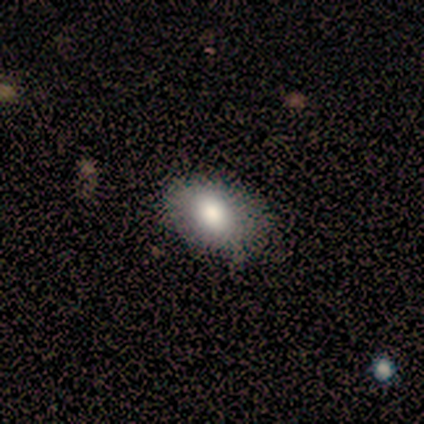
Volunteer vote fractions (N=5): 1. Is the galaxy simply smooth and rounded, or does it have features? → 100% smooth, 0% featured or disk, 0% star or artifact.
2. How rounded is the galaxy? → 80% in between, 20% round, 0% cigar-shaped.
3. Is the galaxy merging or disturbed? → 40% none (tied), 40% minor disturbance (tied), 20% major disturbance, 0% merger.